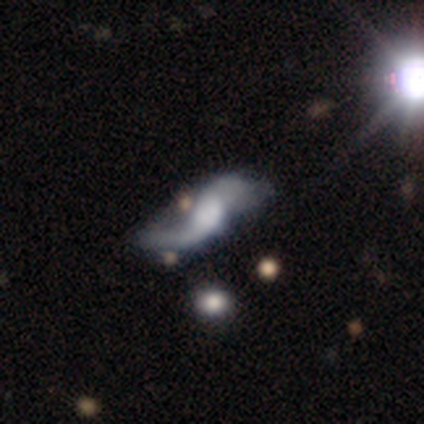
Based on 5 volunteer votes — Smooth or featured: featured or disk — 80% (star or artifact — 20%)
Edge-on disk: no — 75% (yes — 25%)
Bar: strong — 33% (tied with weak — 33%; no — 33%)
Spiral arms: yes — 100%
Spiral winding: loose — 67% (medium — 33%)
Spiral arm count: 2 — 67% (can't tell — 33%)
Bulge size: large — 67% (moderate — 33%)
Merging: minor disturbance — 50% (none — 25%)